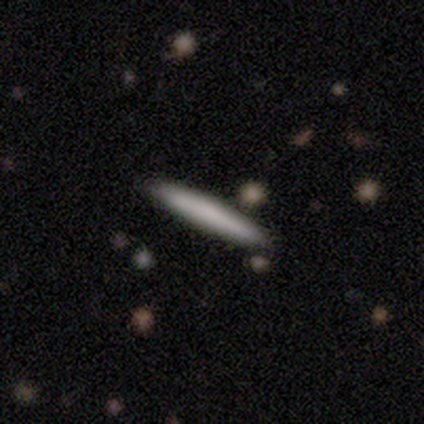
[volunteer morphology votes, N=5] smooth 80%, featured or disk 20%, star or artifact 0%. Down the decision tree: how rounded — cigar-shaped (100%); merging — none (80%).